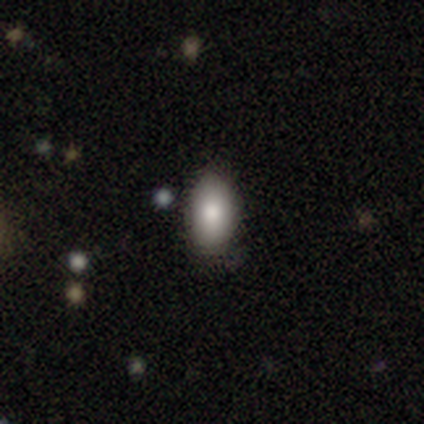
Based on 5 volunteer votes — This appears to be a smooth galaxy with no disk features (80%) that is in between round and cigar-shaped (100%). Merging: none (100%).